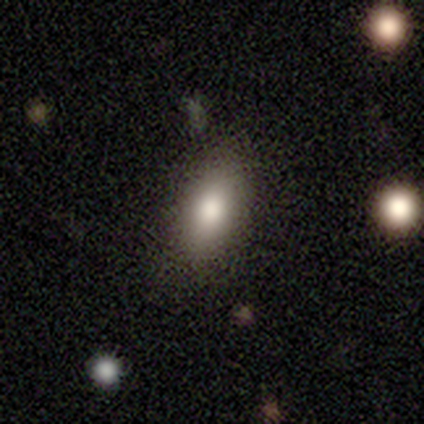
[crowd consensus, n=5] Smooth or featured: smooth — 80% (featured or disk — 20%)
How rounded: in between — 75% (round — 25%)
Merging: none — 100%